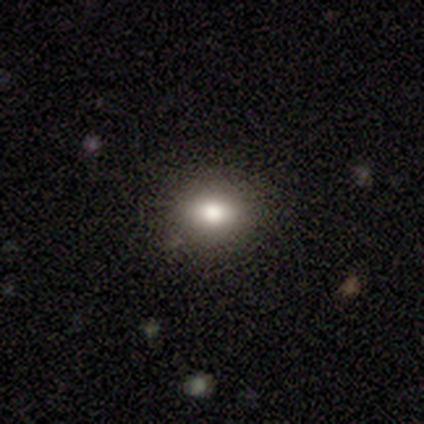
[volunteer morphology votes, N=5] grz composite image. It shows a smooth galaxy with no disk features (60%) that is in between round and cigar-shaped (100%). Merging: none (50%).